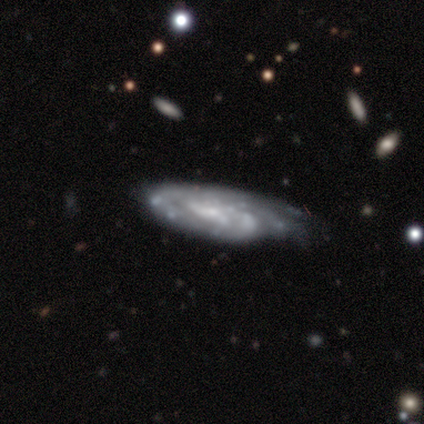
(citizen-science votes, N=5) Volunteers were most divided on "bar" (2-way tie): weak: 50%, no: 50%, strong: 0%; "spiral arm count" (4-way tie): 2: 25%, 3: 25%, more than 4: 25%, can't tell: 25%, 1: 0%, 4: 0%; "merging" (2-way tie): none: 40%, major disturbance: 40%, minor disturbance: 20%, merger: 0%. More confident: smooth or featured — featured or disk (100%); spiral arms — yes (100%); spiral winding — tight (100%); edge-on disk — no (80%); bulge size — small (75%).